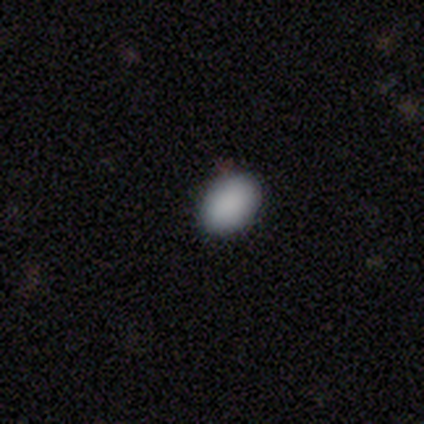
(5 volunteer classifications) This is clearly a smooth galaxy (100%). How rounded: likely in between (60%). Merging: clearly none (100%).